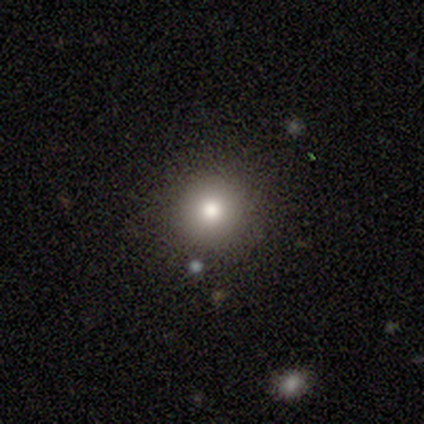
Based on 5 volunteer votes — smooth-or-featured: smooth: 40% (tied) | featured or disk: 40% (tied) | star or artifact: 20%
  how-rounded: round: 50% (tied) | in between: 50% (tied) | cigar-shaped: 0%
  merging: none: 75% | minor disturbance: 25% | major disturbance: 0% | merger: 0%